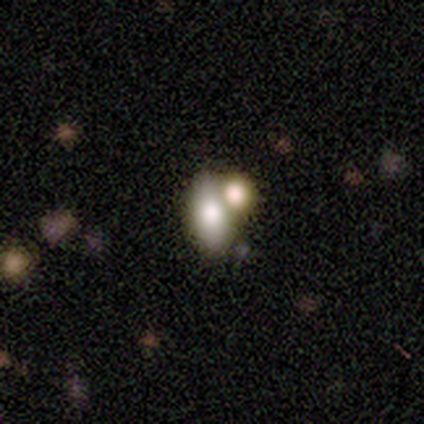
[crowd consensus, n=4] Smooth or featured? featured or disk (50%)
Edge-on disk? no (100%)
Bar? no (100%)
Spiral arms? yes (50%, tied with no)
Spiral winding? tight (100%)
Spiral arm count? can't tell (100%)
Bulge size? large (50%, tied with small)
Merging? merger (100%)